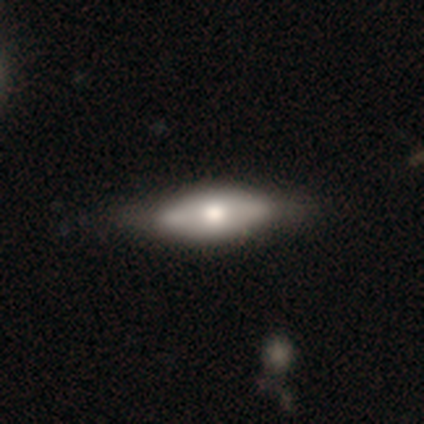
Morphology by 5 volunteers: A smooth galaxy with no disk features (80%) that is in between round and cigar-shaped (100%). Merging: none (100%).